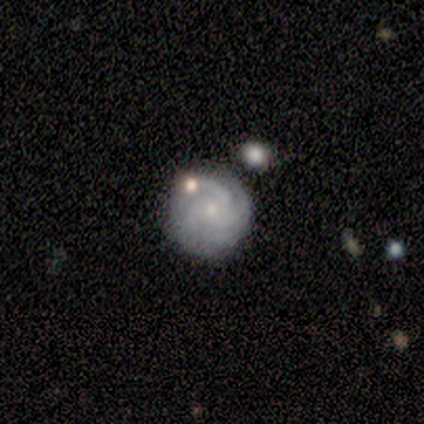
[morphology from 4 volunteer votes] This is likely a featured or disk galaxy (75%). It is clearly not viewed edge-on (100%). Bar: likely no (67%). Spiral arm pattern: clearly yes (100%). Spiral arm count: likely 3 (67%). Spiral winding: clearly tight (100%). Central bulge: clearly small (100%). Merging: likely none (67%).